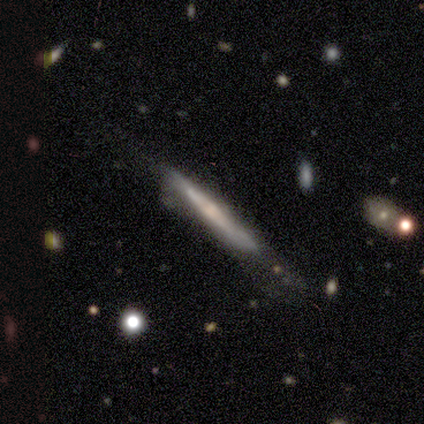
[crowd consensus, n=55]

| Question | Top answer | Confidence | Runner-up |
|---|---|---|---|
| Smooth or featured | featured or disk | 82% | smooth (18%) |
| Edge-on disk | yes | 93% | no (7%) |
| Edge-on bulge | rounded | 40% | none (38%) |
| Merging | none | 49% | minor disturbance (35%) |